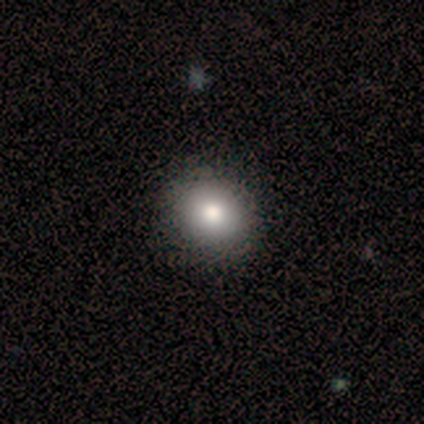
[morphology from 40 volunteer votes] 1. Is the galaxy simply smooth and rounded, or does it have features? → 90% smooth, 10% featured or disk, 0% star or artifact.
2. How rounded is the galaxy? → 75% round, 25% in between, 0% cigar-shaped.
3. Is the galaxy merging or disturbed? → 57% none, 8% minor disturbance, 2% major disturbance, 2% merger.